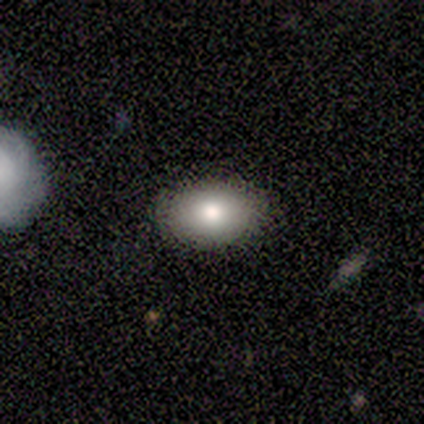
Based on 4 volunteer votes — This is clearly a smooth galaxy (100%). How rounded: likely in between (75%). Merging: clearly none (100%).